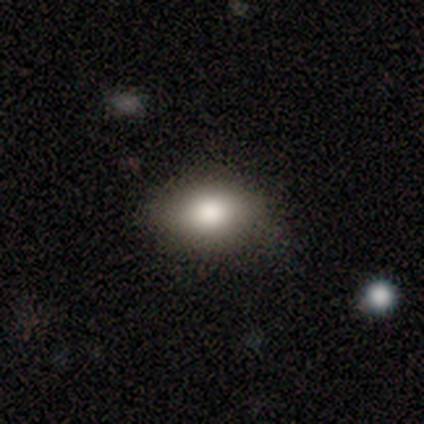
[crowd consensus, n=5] Volunteers were most divided on "how rounded": in between: 80%, round: 20%, cigar-shaped: 0%. More confident: smooth or featured — smooth (100%); merging — none (80%).